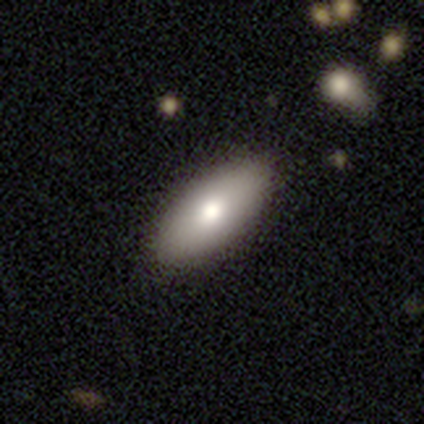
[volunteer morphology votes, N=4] Smooth or featured: smooth — 75% (featured or disk — 25%)
How rounded: in between — 100%
Merging: none — 75% (major disturbance — 25%)